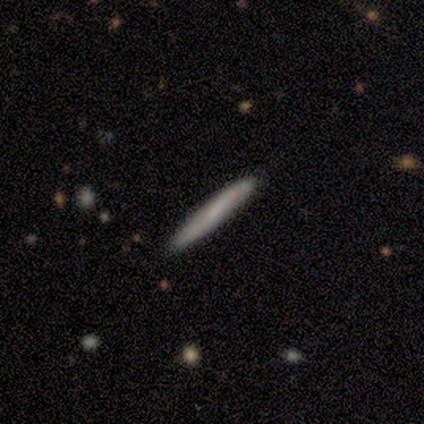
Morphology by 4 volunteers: smooth 75%, featured or disk 25%, star or artifact 0%. Down the decision tree: how rounded — cigar-shaped (100%); merging — none (100%).